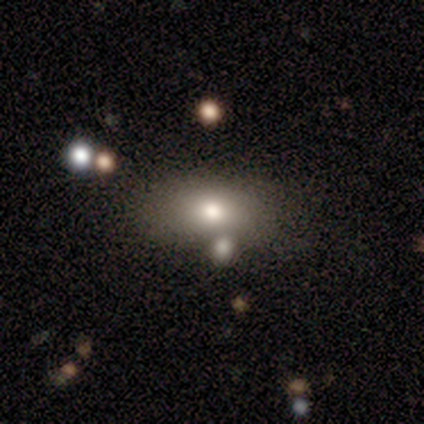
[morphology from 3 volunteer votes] smooth 100%, featured or disk 0%, star or artifact 0%. Down the decision tree: how rounded — in between (100%); merging — none (67%).